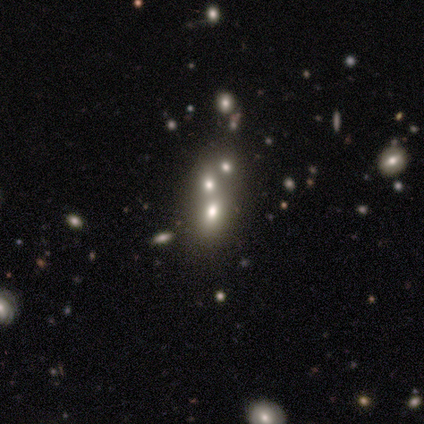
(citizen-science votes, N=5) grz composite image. It shows a smooth galaxy with no disk features (40%, tied with featured or disk) that is in between round and cigar-shaped (100%). Merging: merger (75%).